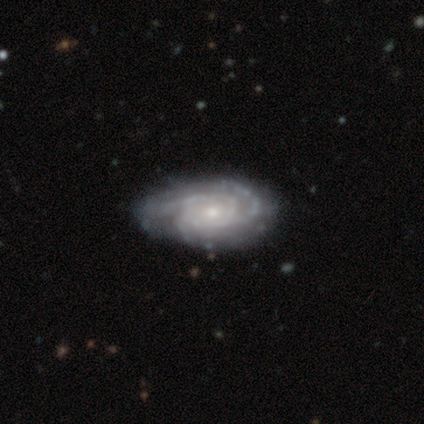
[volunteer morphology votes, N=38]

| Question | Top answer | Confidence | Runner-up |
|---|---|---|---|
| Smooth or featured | featured or disk | 92% | smooth (5%) |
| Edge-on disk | no | 97% | yes (3%) |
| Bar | no | 76% | weak (21%) |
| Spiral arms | yes | 100% | — |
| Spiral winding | tight | 56% | medium (41%) |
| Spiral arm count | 3 | 65% | can't tell (15%) |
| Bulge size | small | 56% | moderate (44%) |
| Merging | none | 57% | minor disturbance (19%) |